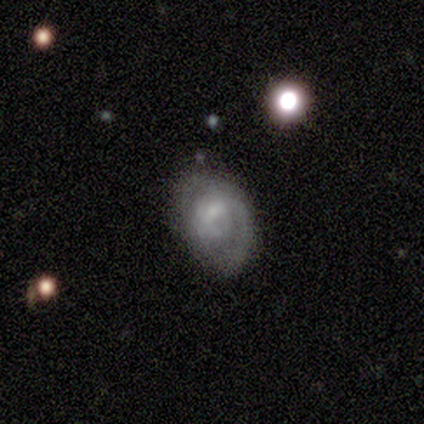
Q: Smooth or featured?
A: smooth (60%); runner-up: featured or disk (40%)
Q: How rounded?
A: round (67%); runner-up: in between (33%)
Q: Merging?
A: major disturbance (60%); runner-up: none (40%)